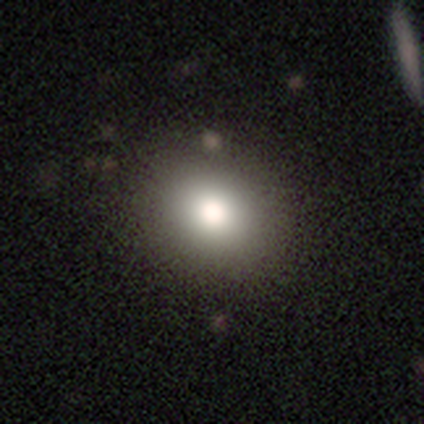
Overall: smooth (78%). How rounded: round (66%; in between 34%). Merging: none (88%).